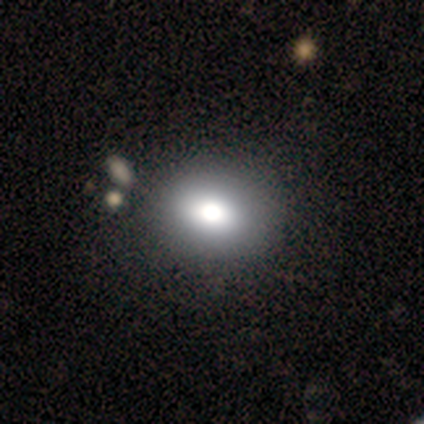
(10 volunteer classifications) Smooth or featured? 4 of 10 (40%, tied with star or artifact) said smooth. How rounded? 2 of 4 (50%, tied with in between) said round. Merging? 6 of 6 (100%) said none.